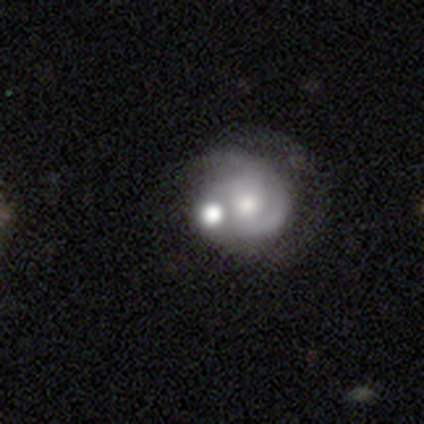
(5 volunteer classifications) A featured or disk galaxy (100%) with no bar (60%), 2 (100%) medium (67%) spiral arms (60%) and a moderate central bulge (40%, tied with small).

Vote fractions:
- Smooth or featured? featured or disk: 100% / smooth: 0% / star or artifact: 0%
- Edge-on disk? no: 100% / yes: 0%
- Bar? no: 60% / weak: 40% / strong: 0%
- Spiral arms? yes: 60% / no: 40%
- Spiral winding? medium: 67% / loose: 33% / tight: 0%
- Spiral arm count? 2: 100% / 1: 0% / 3: 0% / 4: 0% / more than 4: 0% / can't tell: 0%
- Bulge size? moderate: 40% (tied) / small: 40% (tied) / large: 20% / dominant: 0% / none: 0%
- Merging? merger: 60% / minor disturbance: 40% / none: 0% / major disturbance: 0%